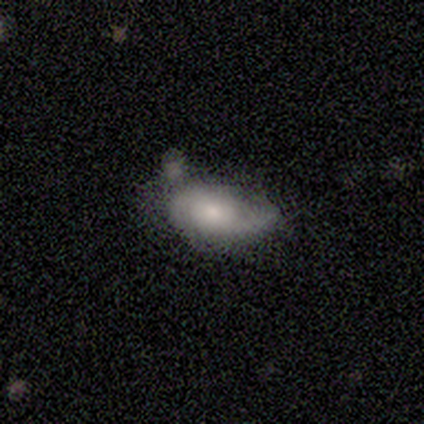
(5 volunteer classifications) Smooth or featured: smooth — 40% (tied with featured or disk — 40%)
How rounded: in between — 100%
Merging: minor disturbance — 75% (none — 25%)